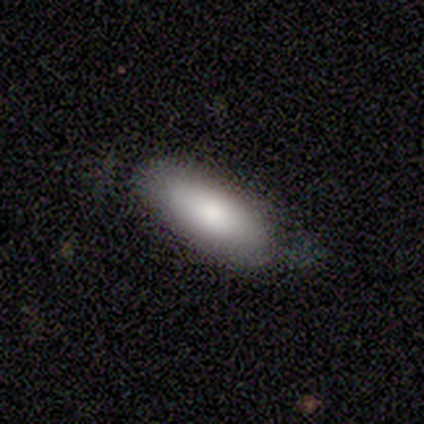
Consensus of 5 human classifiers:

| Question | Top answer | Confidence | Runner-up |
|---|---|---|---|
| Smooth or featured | smooth | 100% | — |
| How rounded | in between | 80% | cigar-shaped (20%) |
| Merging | none | 80% | minor disturbance (20%) |